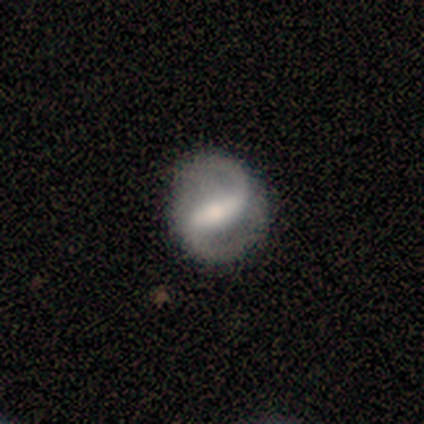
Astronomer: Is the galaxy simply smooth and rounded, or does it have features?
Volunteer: featured or disk — 87%.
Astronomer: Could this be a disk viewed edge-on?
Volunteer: no — 97%.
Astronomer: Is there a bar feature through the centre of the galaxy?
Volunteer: strong — 66%.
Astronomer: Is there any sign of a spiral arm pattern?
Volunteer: yes — 92%.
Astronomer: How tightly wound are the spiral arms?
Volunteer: medium — 51% (runner-up: loose, 37%).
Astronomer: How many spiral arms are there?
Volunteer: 2 — 91%.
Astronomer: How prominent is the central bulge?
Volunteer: moderate — 50%.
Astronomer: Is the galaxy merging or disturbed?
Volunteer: none — 69%.